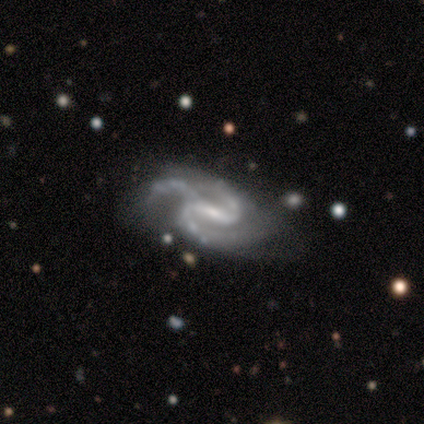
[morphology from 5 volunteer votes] Smooth or featured?
  - featured or disk: 100% *
  - smooth: 0%
  - star or artifact: 0%
Edge-on disk?
  - no: 100% *
  - yes: 0%
Bar?
  - weak: 60% *
  - strong: 40%
  - no: 0%
Spiral arms?
  - yes: 100% *
  - no: 0%
Spiral winding?
  - medium: 60% *
  - loose: 40%
  - tight: 0%
Spiral arm count?
  - 3: 80% *
  - 2: 20%
  - 1: 0%
  - 4: 0%
  - more than 4: 0%
  - can't tell: 0%
Bulge size?
  - small: 60% *
  - moderate: 20%
  - none: 20%
  - dominant: 0%
  - large: 0%
Merging?
  - minor disturbance: 60% *
  - none: 20%
  - major disturbance: 20%
  - merger: 0%